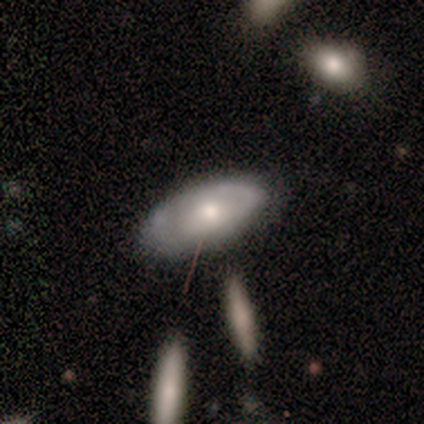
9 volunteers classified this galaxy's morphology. type=smooth (56%); roundness=in between (100%); merging=none (56%).